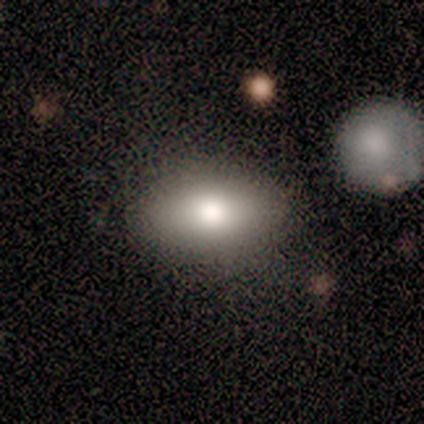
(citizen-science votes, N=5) Smooth or featured: smooth — 60% (featured or disk — 40%)
How rounded: in between — 100%
Merging: none — 80% (minor disturbance — 20%)